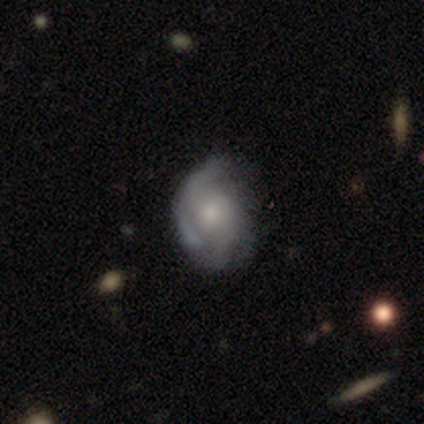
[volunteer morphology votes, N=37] smooth_or_featured: featured or disk (p=0.73) [alt: smooth p=0.27]
disk_edge_on: no (p=1.00)
bar: no (p=0.67) [alt: weak p=0.26]
has_spiral_arms: yes (p=0.78) [alt: no p=0.22]
spiral_winding: loose (p=0.43) [alt: tight p=0.38]
spiral_arm_count: can't tell (p=0.43) [alt: 2 p=0.33]
bulge_size: small (p=0.52) [alt: moderate p=0.48]
merging: none (p=0.46) [alt: minor disturbance p=0.27]